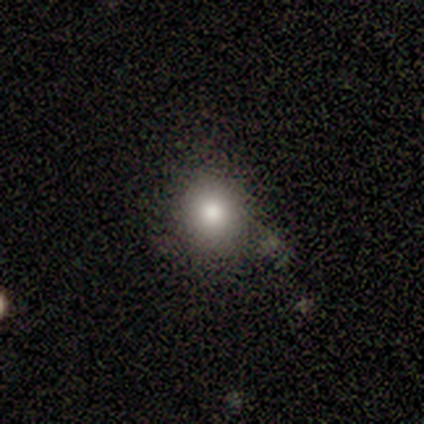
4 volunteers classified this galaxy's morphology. Smooth or featured? smooth (75%)
How rounded? round (100%)
Merging? none (100%)